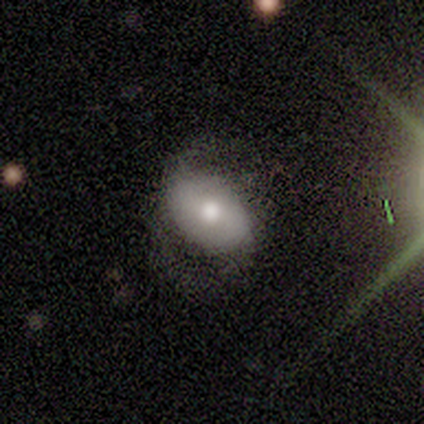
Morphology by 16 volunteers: Smooth or featured? smooth (50%)
How rounded? in between (100%)
Merging? minor disturbance (46%)